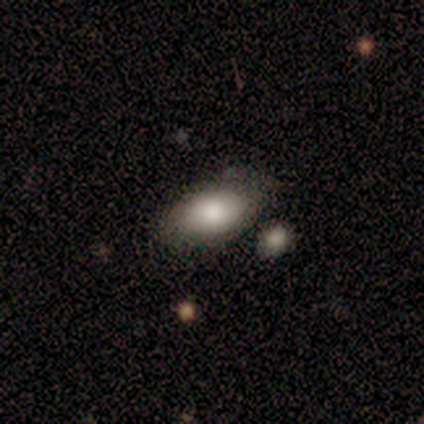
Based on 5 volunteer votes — Smooth or featured: smooth — 80% (featured or disk — 20%)
How rounded: in between — 100%
Merging: none — 60% (major disturbance — 20%)